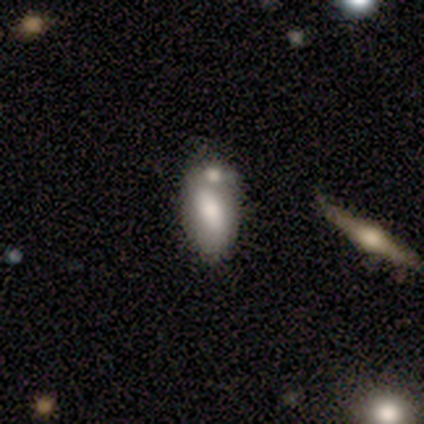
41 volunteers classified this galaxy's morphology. Overall: smooth (66%). How rounded: in between (96%). Merging: none (49%; merger 30%).